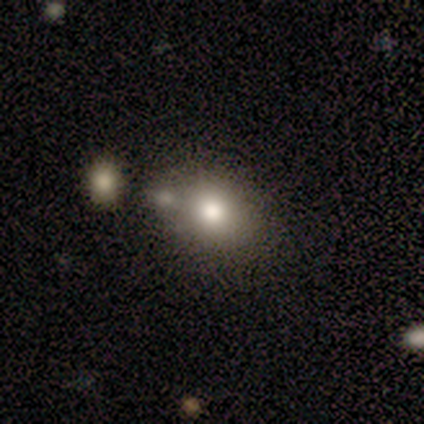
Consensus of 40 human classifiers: smooth_or_featured: smooth (p=0.68) [alt: featured or disk p=0.20]
how_rounded: in between (p=0.56) [alt: round p=0.44]
merging: merger (p=0.46) [alt: none p=0.31]